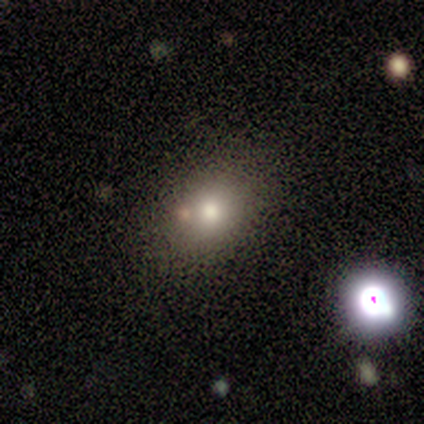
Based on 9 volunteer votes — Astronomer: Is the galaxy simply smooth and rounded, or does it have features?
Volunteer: smooth — 89%.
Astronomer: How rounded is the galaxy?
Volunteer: round — 50%, tied with in between at 50%.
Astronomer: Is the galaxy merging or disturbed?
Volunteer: none — 78%.